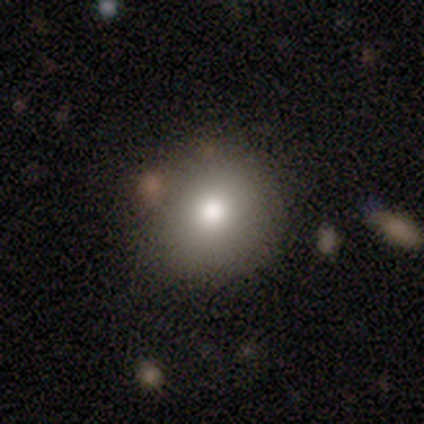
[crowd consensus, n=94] smooth 79%, star or artifact 15%, featured or disk 6%. Down the decision tree: how rounded — round (93%); merging — none (80%).